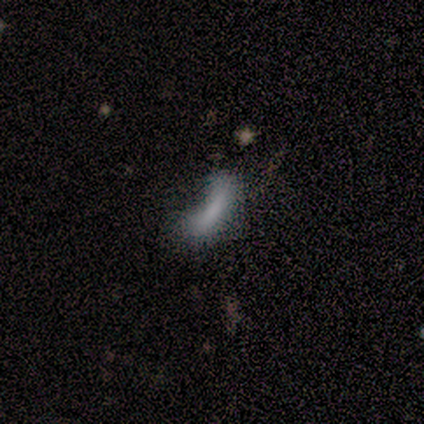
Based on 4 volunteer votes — smooth 100%, featured or disk 0%, star or artifact 0%. Down the decision tree: how rounded — cigar-shaped (75%); merging — minor disturbance (50%).